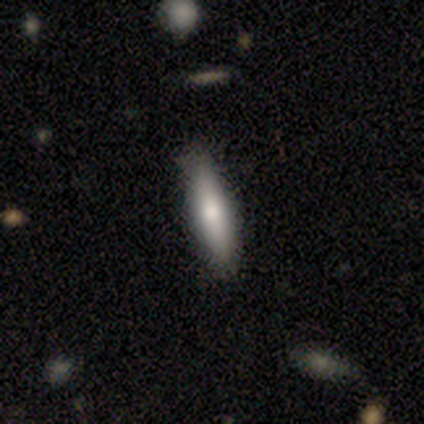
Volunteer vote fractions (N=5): Smooth or featured: smooth — 60% (featured or disk — 20%)
How rounded: cigar-shaped — 100%
Merging: none — 100%